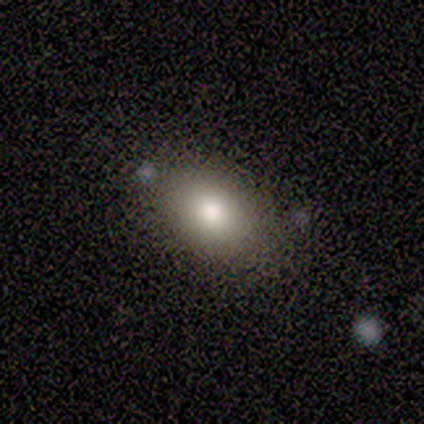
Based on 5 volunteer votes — smooth 80%, featured or disk 20%, star or artifact 0%. Down the decision tree: how rounded — in between (100%); merging — none (100%).